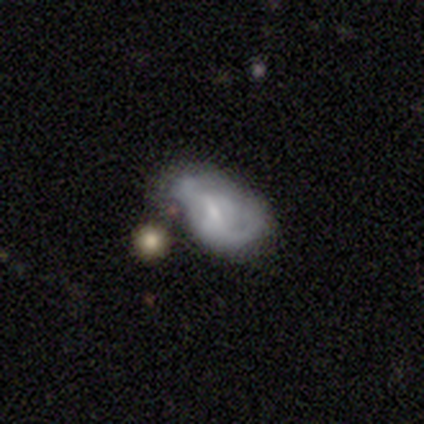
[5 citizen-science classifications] A smooth galaxy with no disk features (60%) that is in between round and cigar-shaped (100%).

Vote fractions:
- Smooth or featured? smooth: 60% / featured or disk: 20% / star or artifact: 20%
- How rounded? in between: 100% / round: 0% / cigar-shaped: 0%
- Merging? major disturbance: 75% / minor disturbance: 25% / none: 0% / merger: 0%